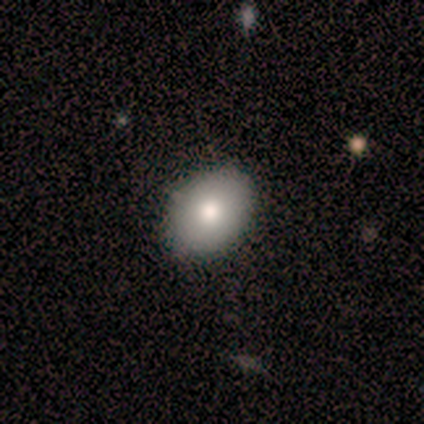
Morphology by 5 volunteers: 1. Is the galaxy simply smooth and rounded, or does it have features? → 40% smooth (tied), 40% featured or disk (tied), 20% star or artifact.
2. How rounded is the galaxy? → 100% in between, 0% round, 0% cigar-shaped.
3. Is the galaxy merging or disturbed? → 75% none, 25% major disturbance, 0% minor disturbance, 0% merger.